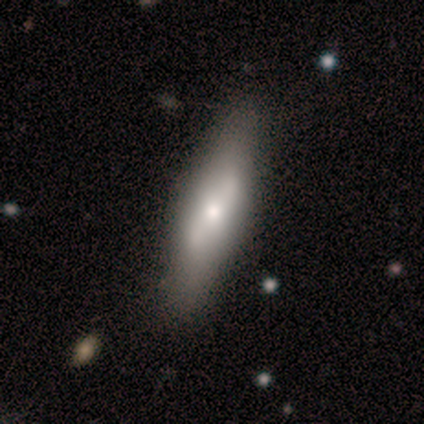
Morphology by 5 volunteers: type=featured or disk (40%, tied with star or artifact); edge-on=yes (50%, tied with no); edge-on bulge=rounded (100%); merging=none (67%).